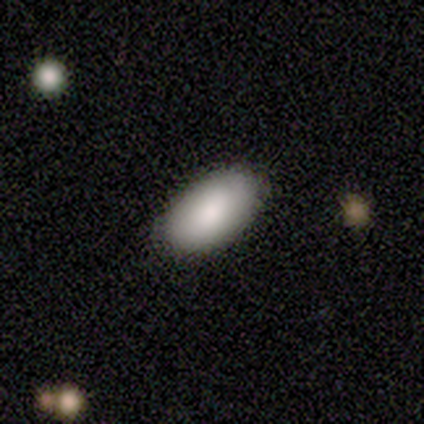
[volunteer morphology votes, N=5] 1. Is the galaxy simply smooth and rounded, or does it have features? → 60% smooth, 20% featured or disk, 20% star or artifact.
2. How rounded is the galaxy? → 100% in between, 0% round, 0% cigar-shaped.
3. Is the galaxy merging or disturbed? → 100% none, 0% minor disturbance, 0% major disturbance, 0% merger.